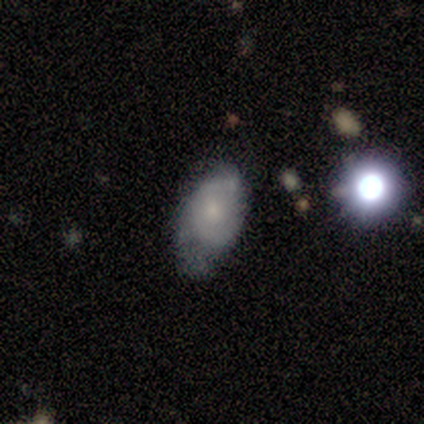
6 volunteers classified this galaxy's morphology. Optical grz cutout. It shows a featured or disk galaxy (83%) with no bar (80%), tight (50%, tied with medium) spiral arms (80%) and a small central bulge (80%). Merging: minor disturbance (33%, tied with major disturbance and merger).